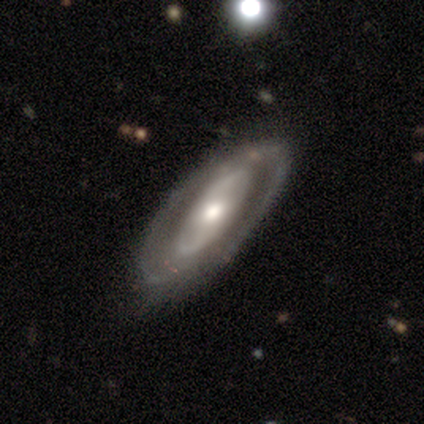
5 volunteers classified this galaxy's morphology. Overall: featured or disk (80%). Edge-on disk: no (100%). Bar: no (50%; strong 25%). Spiral arms: yes (100%). Spiral arm count: 2 (75%). Spiral winding: medium (75%). Bulge size: moderate (100%). Merging: minor disturbance (80%).